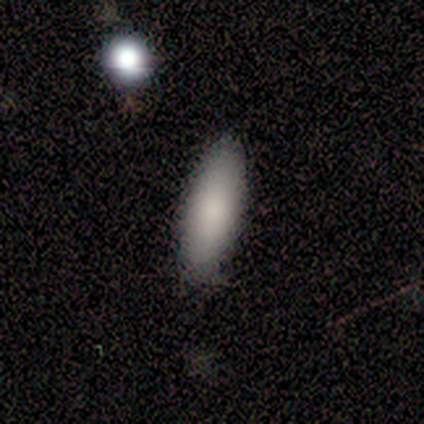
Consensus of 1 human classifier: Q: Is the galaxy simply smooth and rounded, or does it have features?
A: smooth — 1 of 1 (100%).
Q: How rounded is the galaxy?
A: in between — 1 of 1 (100%).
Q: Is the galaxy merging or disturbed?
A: none — 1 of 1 (100%).